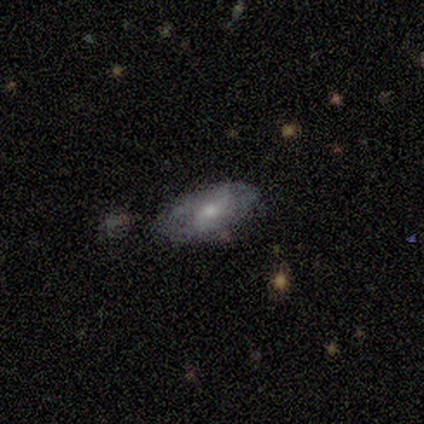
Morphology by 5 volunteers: smooth-or-featured: featured or disk: 60% | smooth: 40% | star or artifact: 0%
  disk-edge-on: no: 67% | yes: 33%
    bar: weak: 50% (tied) | no: 50% (tied) | strong: 0%
    has-spiral-arms: no: 100% | yes: 0%
    bulge-size: moderate: 50% (tied) | small: 50% (tied) | dominant: 0% | large: 0% | none: 0%
  merging: none: 60% | major disturbance: 20% | merger: 20% | minor disturbance: 0%